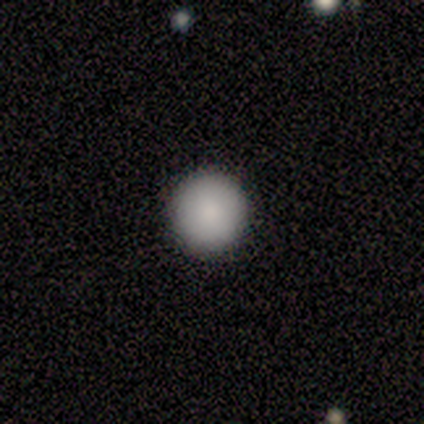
smooth 100%, featured or disk 0%, star or artifact 0%. Down the decision tree: how rounded — round (100%); merging — none (100%).